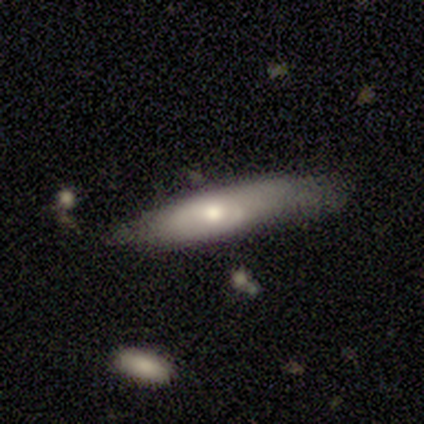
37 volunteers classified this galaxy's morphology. Volunteers were most divided on "merging": none: 52%, minor disturbance: 35%, major disturbance: 10%, merger: 3%. More confident: how rounded — cigar-shaped (71%); smooth or featured — smooth (57%).